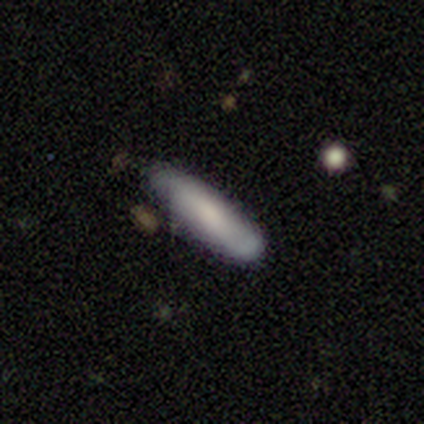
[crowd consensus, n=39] Morphology: type=smooth (82%); roundness=cigar-shaped (84%); merging=none (66%).